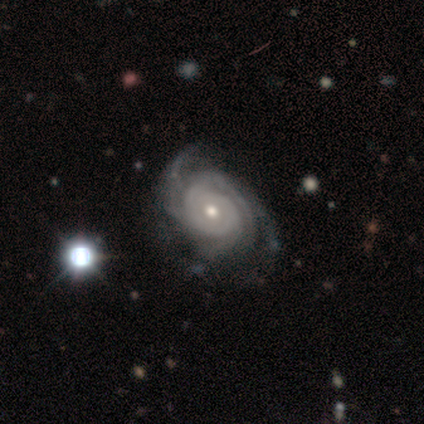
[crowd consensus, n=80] smooth_or_featured: featured or disk (p=0.93) [alt: smooth p=0.05]
disk_edge_on: no (p=0.97) [alt: yes p=0.03]
bar: no (p=0.83) [alt: weak p=0.12]
has_spiral_arms: yes (p=1.00)
spiral_winding: tight (p=0.75) [alt: medium p=0.25]
spiral_arm_count: 3 (p=0.35) [alt: 4 p=0.28]
bulge_size: moderate (p=0.64) [alt: small p=0.35]
merging: none (p=0.38) [alt: minor disturbance p=0.17]